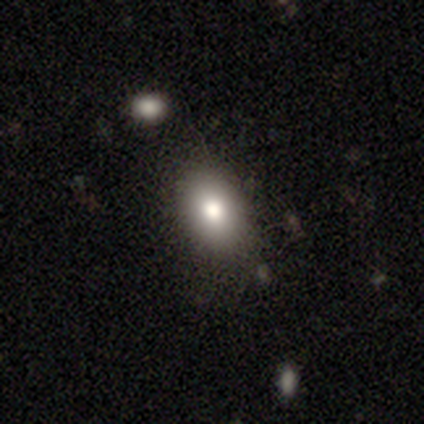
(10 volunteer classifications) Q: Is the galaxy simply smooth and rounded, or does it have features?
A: smooth — 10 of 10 (100%).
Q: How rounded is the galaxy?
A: in between — 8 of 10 (80%).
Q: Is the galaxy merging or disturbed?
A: none — 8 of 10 (80%).